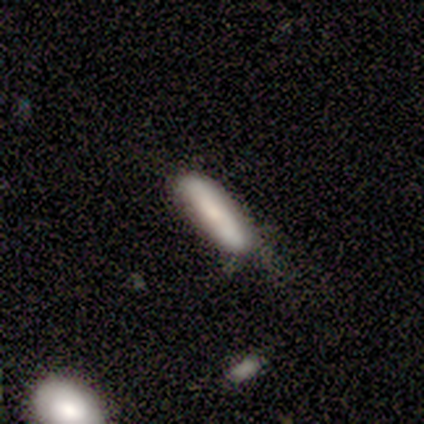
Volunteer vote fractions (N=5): smooth 80%, featured or disk 20%, star or artifact 0%. Down the decision tree: how rounded — cigar-shaped (75%); merging — none (60%).